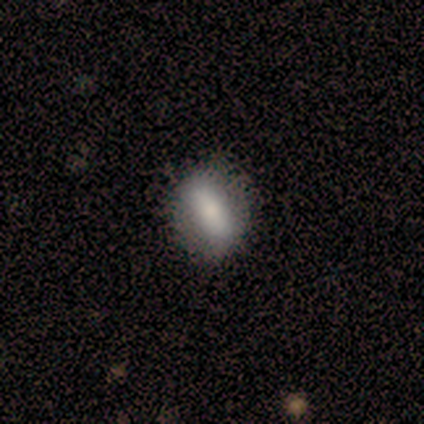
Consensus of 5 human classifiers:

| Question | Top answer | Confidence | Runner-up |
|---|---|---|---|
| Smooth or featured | smooth | 100% | — |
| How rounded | in between | 100% | — |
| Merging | none | 60% | minor disturbance (20%) |